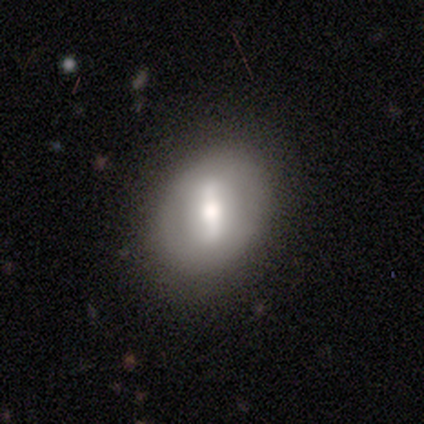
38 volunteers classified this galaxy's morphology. Smooth or featured?
  - featured or disk: 58% *
  - smooth: 34%
  - star or artifact: 8%
Edge-on disk?
  - no: 77% *
  - yes: 23%
Bar?
  - strong: 65% *
  - weak: 29%
  - no: 6%
Spiral arms?
  - no: 71% *
  - yes: 29%
Bulge size?
  - moderate: 65% *
  - large: 24%
  - dominant: 6%
  - small: 6%
  - none: 0%
Merging?
  - none: 89% *
  - minor disturbance: 6%
  - major disturbance: 6%
  - merger: 0%